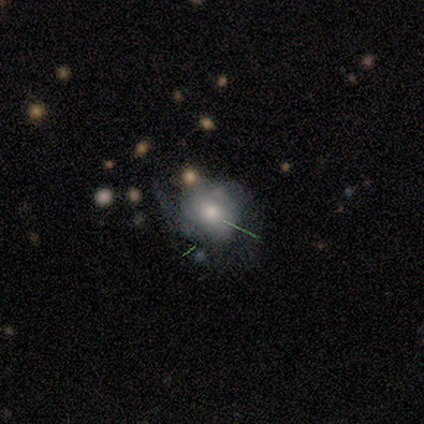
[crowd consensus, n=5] smooth 60%, featured or disk 20%, star or artifact 20%. Down the decision tree: how rounded — in between (67%); merging — minor disturbance (50%).